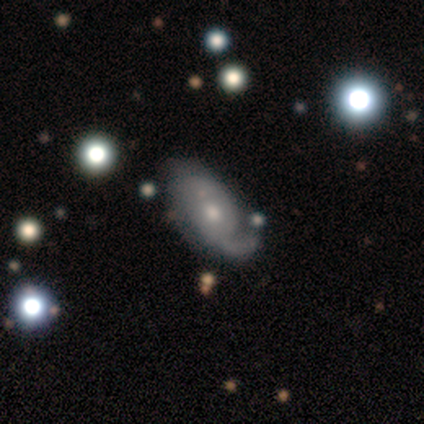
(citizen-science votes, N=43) This appears to be a featured or disk galaxy (79%) with no bar (76%), 2 (50%) medium (46%) spiral arms (79%) and a moderate central bulge (48%). Merging: none (38%, tied with minor disturbance).